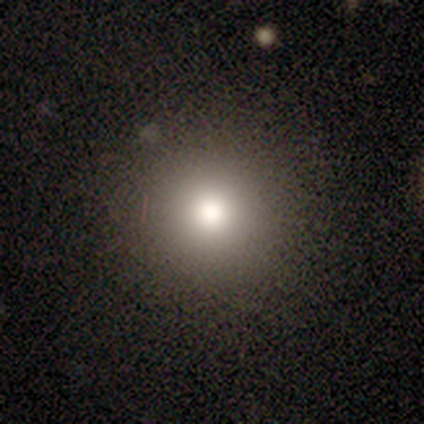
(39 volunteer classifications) A smooth galaxy with no disk features (72%) that is round (96%). Merging: none (85%).